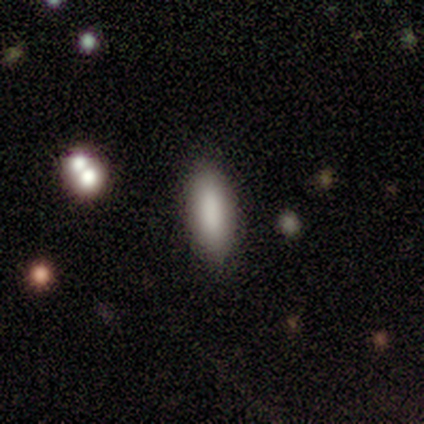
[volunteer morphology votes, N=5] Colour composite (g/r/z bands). It shows a smooth galaxy with no disk features (60%) that is cigar-shaped (67%). Merging: none (100%).